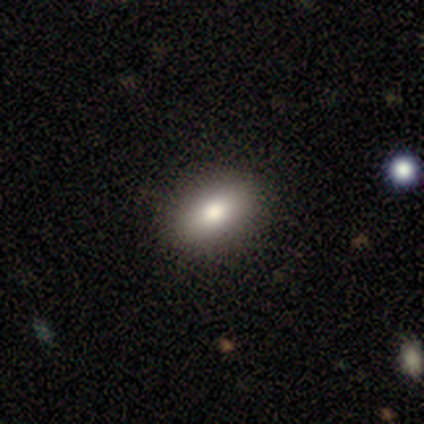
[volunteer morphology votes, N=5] type=smooth (80%); roundness=in between (75%); merging=none (100%).